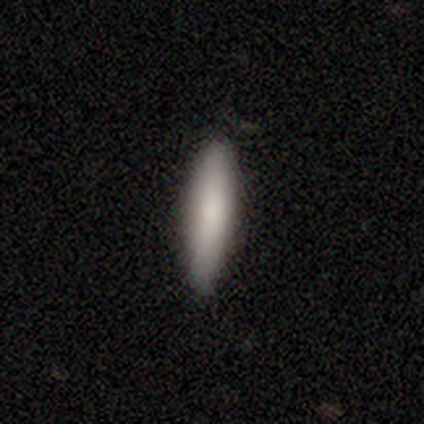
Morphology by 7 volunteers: smooth 86%, featured or disk 14%, star or artifact 0%. Down the decision tree: how rounded — cigar-shaped (100%); merging — none (100%).